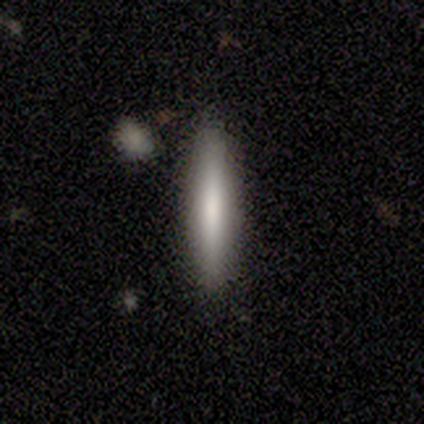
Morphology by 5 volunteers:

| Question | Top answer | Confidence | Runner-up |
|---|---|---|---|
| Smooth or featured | featured or disk | 60% | smooth (20%) |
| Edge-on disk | yes | 100% | — |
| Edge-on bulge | boxy | 33% | tied: none (33%), rounded (33%) |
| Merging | none | 100% | — |